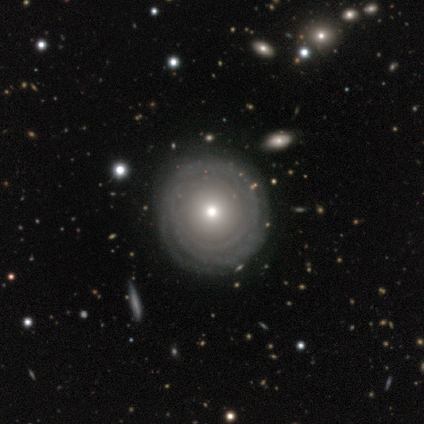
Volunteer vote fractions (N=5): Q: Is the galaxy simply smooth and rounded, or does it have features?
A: featured or disk — 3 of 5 (60%).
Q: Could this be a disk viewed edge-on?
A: no — 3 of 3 (100%).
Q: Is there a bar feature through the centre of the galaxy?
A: no — 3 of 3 (100%).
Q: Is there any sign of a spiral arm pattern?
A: yes — 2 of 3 (67%).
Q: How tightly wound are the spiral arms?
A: tight — 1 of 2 (50%, tied with loose).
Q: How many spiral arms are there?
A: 3 — 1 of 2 (50%, tied with can't tell).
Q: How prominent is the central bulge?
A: moderate — 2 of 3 (67%).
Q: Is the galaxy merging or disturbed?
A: none — 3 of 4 (75%).